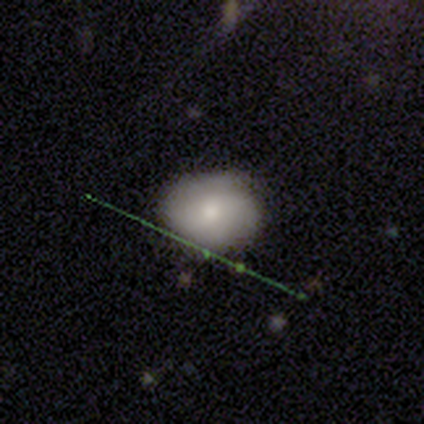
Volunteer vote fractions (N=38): Q: Smooth or featured?
A: smooth (66%); runner-up: featured or disk (18%)
Q: How rounded?
A: round (60%); runner-up: in between (40%)
Q: Merging?
A: none (75%); runner-up: minor disturbance (22%)